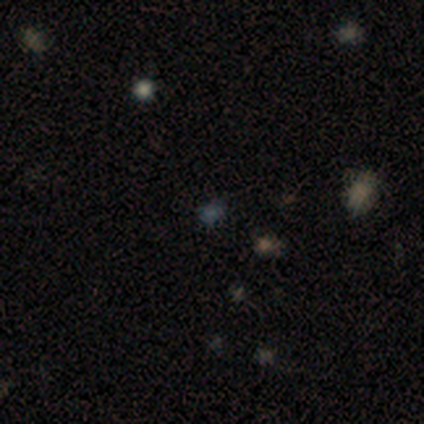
Smooth or featured: star or artifact — 60% (smooth — 40%)